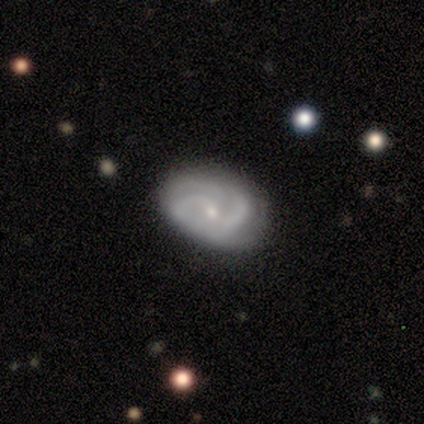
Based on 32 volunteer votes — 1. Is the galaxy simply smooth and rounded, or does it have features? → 75% featured or disk, 22% smooth, 3% star or artifact.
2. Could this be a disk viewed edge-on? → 96% no, 4% yes.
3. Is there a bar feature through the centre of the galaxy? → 48% weak (tied), 48% no (tied), 4% strong.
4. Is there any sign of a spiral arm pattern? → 96% yes, 4% no.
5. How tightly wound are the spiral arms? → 36% tight (tied), 36% medium (tied), 27% loose.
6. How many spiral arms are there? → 41% 3, 36% 2, 18% can't tell, 5% more than 4, 0% 1, 0% 4.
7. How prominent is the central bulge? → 83% small, 13% moderate, 4% dominant, 0% large, 0% none.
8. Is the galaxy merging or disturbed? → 84% none, 16% minor disturbance, 0% major disturbance, 0% merger.